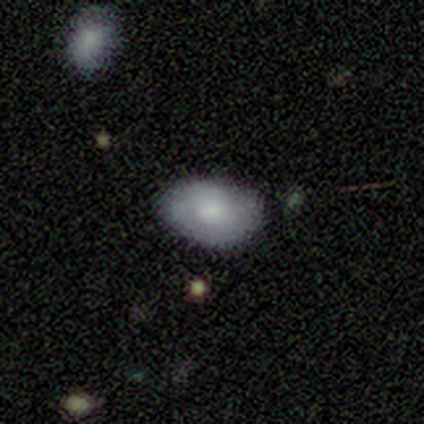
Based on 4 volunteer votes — A smooth galaxy with no disk features (50%, tied with featured or disk) that is round (50%, tied with in between). Merging: none (50%, tied with minor disturbance).